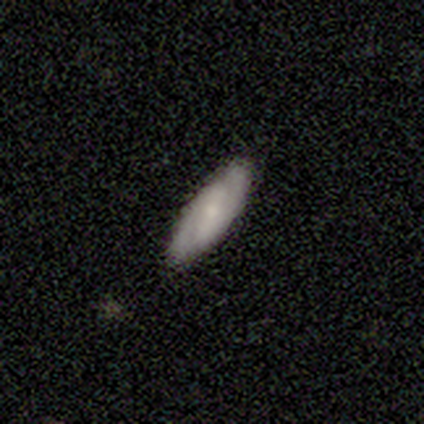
Morphology: type=featured or disk (60%); edge-on=no (100%); bar=no (67%); spiral arms=yes (100%); winding=loose (67%); arm count=2 (67%); bulge=small (67%); merging=none (60%).